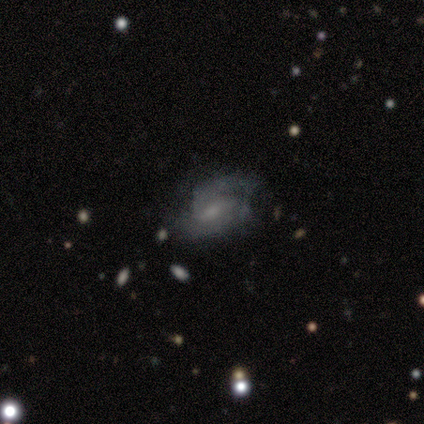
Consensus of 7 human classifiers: smooth_or_featured: featured or disk (p=0.71) [alt: smooth p=0.14]
disk_edge_on: no (p=1.00)
bar: weak (p=0.60) [alt: strong p=0.20]
has_spiral_arms: yes (p=0.80) [alt: no p=0.20]
spiral_winding: tight (p=1.00)
spiral_arm_count: 2 (p=0.75) [alt: can't tell p=0.25]
bulge_size: small (p=0.60) [alt: large p=0.40]
merging: minor disturbance (p=0.50) [alt: none p=0.33]